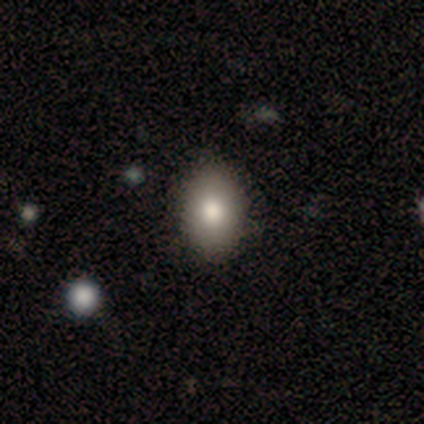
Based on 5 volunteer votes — smooth_or_featured: smooth (p=0.60) [alt: featured or disk p=0.40]
how_rounded: in between (p=1.00)
merging: none (p=1.00)